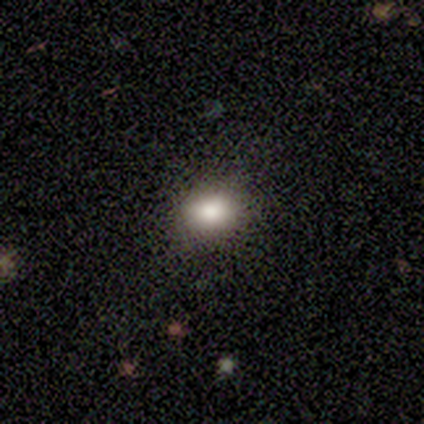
Morphology: type=smooth (100%); roundness=in between (83%); merging=none (100%).